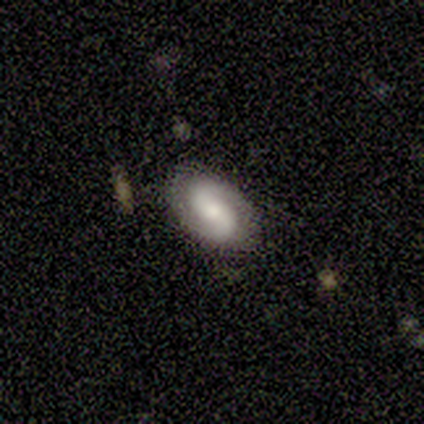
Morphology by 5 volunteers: A featured or disk galaxy (60%) with a weak bar (100%), 2 (100%) medium (67%) spiral arms (100%) and a moderate central bulge (67%). Merging: none (100%).